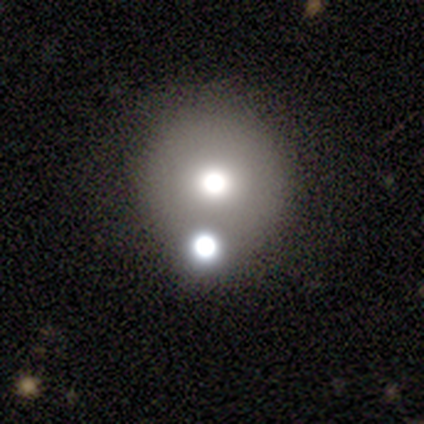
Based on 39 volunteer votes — Smooth or featured?
  - smooth: 62% *
  - featured or disk: 21%
  - star or artifact: 18%
How rounded?
  - round: 92% *
  - in between: 8%
  - cigar-shaped: 0%
Merging?
  - none: 44% *
  - merger: 34%
  - major disturbance: 16%
  - minor disturbance: 6%